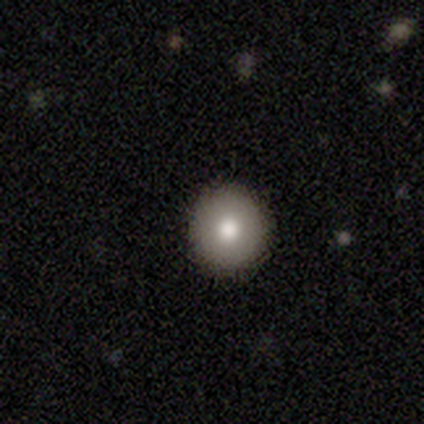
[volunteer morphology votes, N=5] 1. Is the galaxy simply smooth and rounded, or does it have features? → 60% smooth, 20% featured or disk, 20% star or artifact.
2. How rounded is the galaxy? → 100% round, 0% in between, 0% cigar-shaped.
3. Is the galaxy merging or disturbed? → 100% none, 0% minor disturbance, 0% major disturbance, 0% merger.